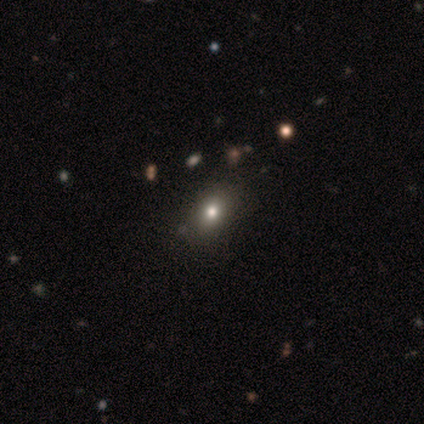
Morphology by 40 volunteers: Overall: smooth (62%). How rounded: in between (68%; round 32%). Merging: none (69%).